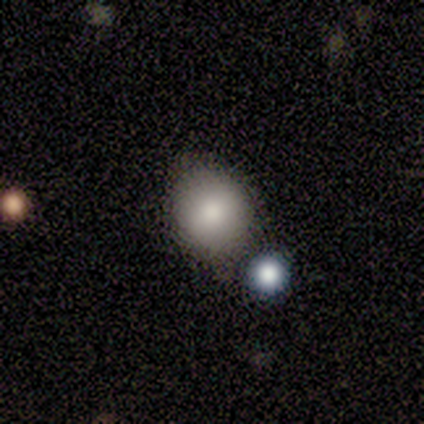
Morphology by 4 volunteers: type=smooth (75%); roundness=in between (67%); merging=none (75%).